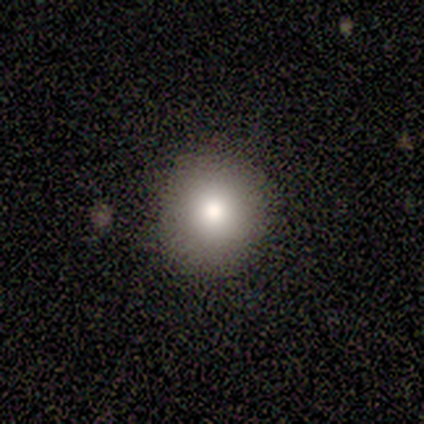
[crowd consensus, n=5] This is clearly a smooth galaxy (100%). How rounded: clearly round (80%). Merging: clearly none (100%).